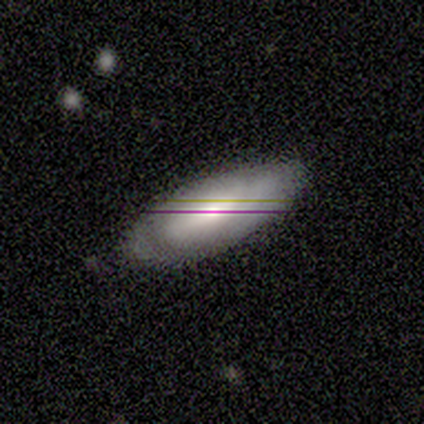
smooth_or_featured: smooth (p=0.60) [alt: featured or disk p=0.20]
how_rounded: in between (p=1.00)
merging: none (p=1.00)